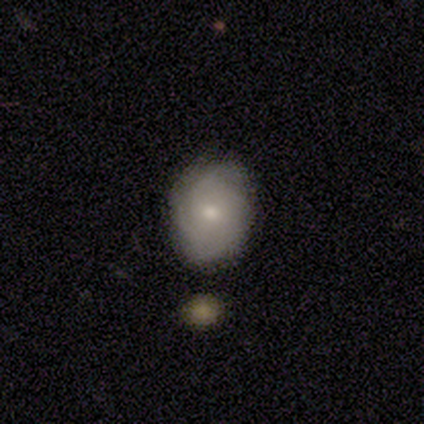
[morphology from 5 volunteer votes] Smooth or featured? smooth (40%, tied with featured or disk)
How rounded? round (100%)
Merging? none (75%)